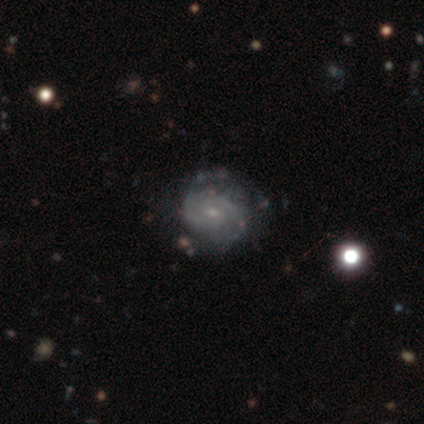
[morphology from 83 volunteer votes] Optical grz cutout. It shows a featured or disk galaxy (86%) with no bar (74%), 2 (47%) tight (64%) spiral arms (93%) and a small central bulge (77%). Merging: none (67%).